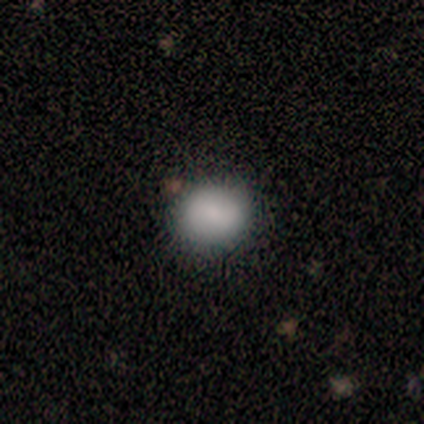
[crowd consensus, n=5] Q: Smooth or featured?
A: smooth (100%)
Q: How rounded?
A: in between (60%); runner-up: round (40%)
Q: Merging?
A: none (60%); runner-up: minor disturbance (40%)